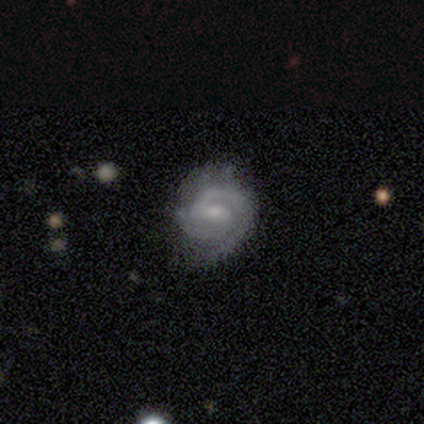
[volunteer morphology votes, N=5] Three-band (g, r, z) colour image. It shows a featured or disk galaxy (80%) with a weak bar (100%), 1 (50%, tied with 2) tight (50%) spiral arms (100%) and a moderate central bulge (50%, tied with small). Merging: none (60%).